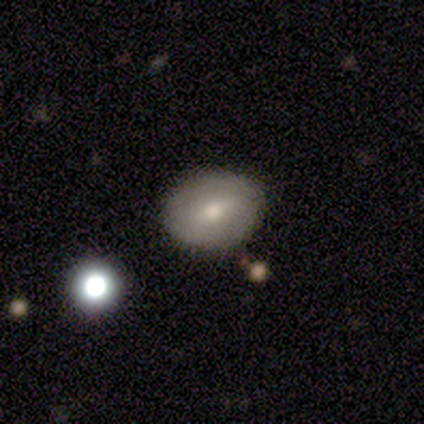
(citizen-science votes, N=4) smooth-or-featured: smooth: 100% | featured or disk: 0% | star or artifact: 0%
  how-rounded: round: 75% | in between: 25% | cigar-shaped: 0%
  merging: none: 50% | minor disturbance: 25% | merger: 25% | major disturbance: 0%